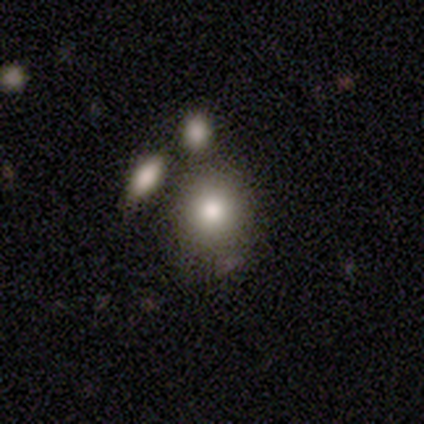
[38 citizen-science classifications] A smooth galaxy with no disk features (87%) that is round (82%).

Vote fractions:
- Smooth or featured? smooth: 87% / featured or disk: 8% / star or artifact: 5%
- How rounded? round: 82% / in between: 15% / cigar-shaped: 3%
- Merging? merger: 42% / none: 28% / minor disturbance: 6% / major disturbance: 0%